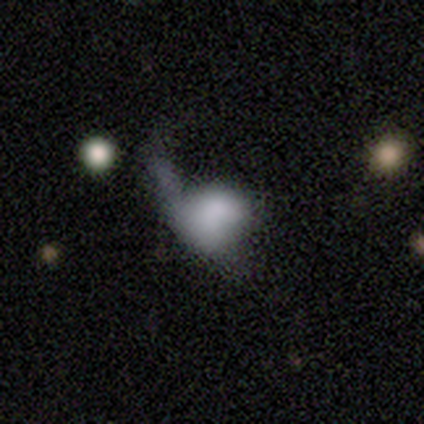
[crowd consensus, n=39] smooth_or_featured: smooth (p=0.62) [alt: featured or disk p=0.36]
how_rounded: in between (p=0.58) [alt: round p=0.38]
merging: major disturbance (p=0.58) [alt: merger p=0.16]